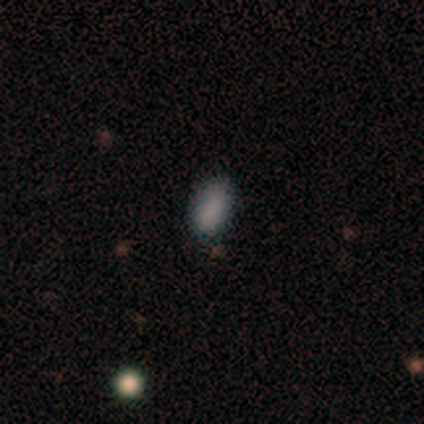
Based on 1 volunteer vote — smooth_or_featured: smooth (p=1.00)
how_rounded: in between (p=1.00)
merging: none (p=1.00)